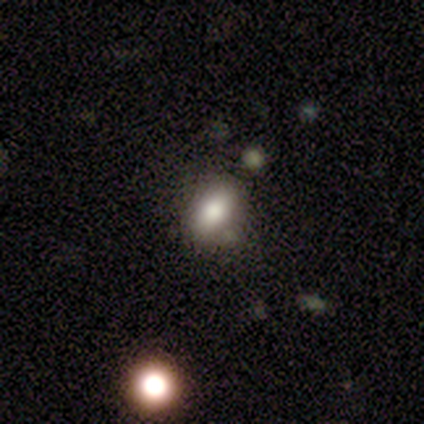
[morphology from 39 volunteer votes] Smooth or featured? 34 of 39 (87%) said smooth. How rounded? 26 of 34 (76%) said in between. Merging? 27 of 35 (77%) said none.